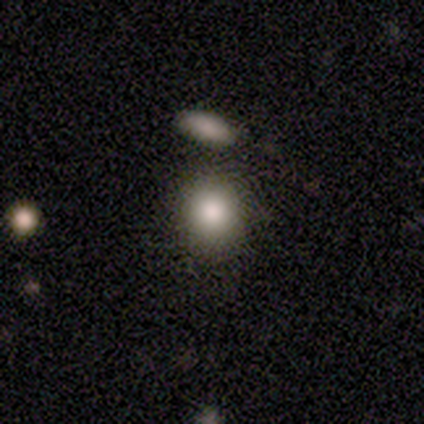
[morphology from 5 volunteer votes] Smooth or featured: smooth — 80% (featured or disk — 20%)
How rounded: round — 75% (in between — 25%)
Merging: none — 60% (merger — 40%)